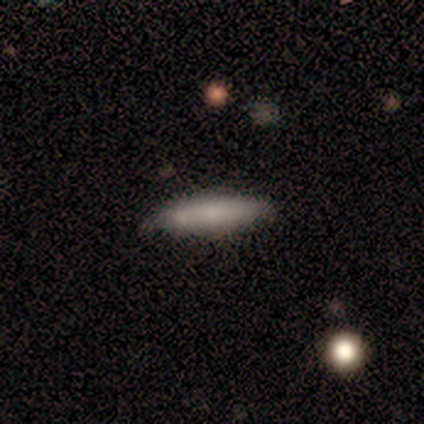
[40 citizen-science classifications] Smooth or featured: smooth — 80% (star or artifact — 12%)
How rounded: cigar-shaped — 91% (in between — 9%)
Merging: none — 74% (merger — 17%)